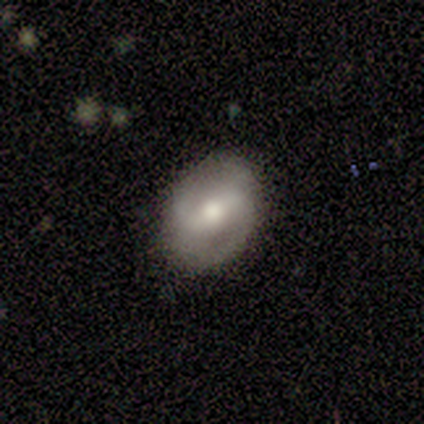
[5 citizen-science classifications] Overall: featured or disk (60%; smooth 40%). Edge-on disk: no (100%). Bar: strong (67%; no 33%). Spiral arms: yes (67%; no 33%). Spiral arm count: 2 (50%, tied with can't tell). Spiral winding: medium (50%, tied with loose). Bulge size: moderate (100%). Merging: none (100%).